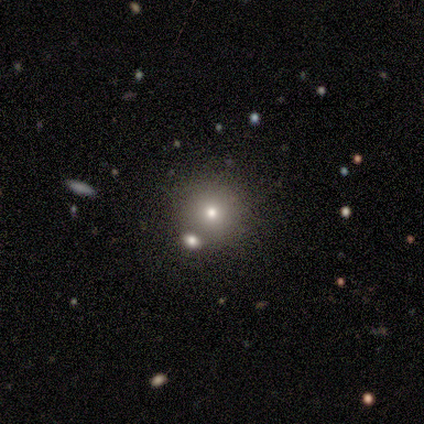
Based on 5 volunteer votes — Overall: smooth (80%). How rounded: round (100%). Merging: none (80%).